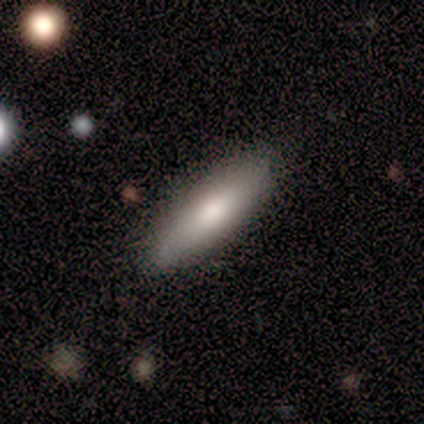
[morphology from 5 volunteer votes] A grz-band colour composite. It shows a smooth galaxy with no disk features (100%) that is cigar-shaped (80%). Merging: none (100%).